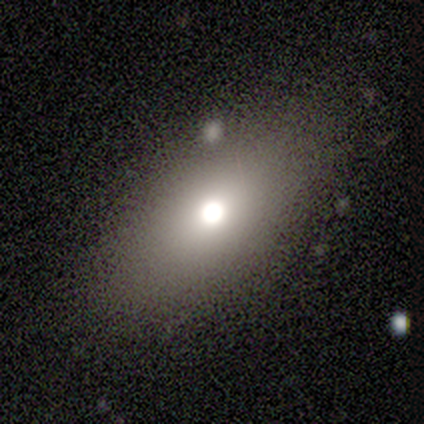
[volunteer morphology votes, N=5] This is clearly a smooth galaxy (100%). How rounded: clearly in between (80%). Merging: likely none (60%).